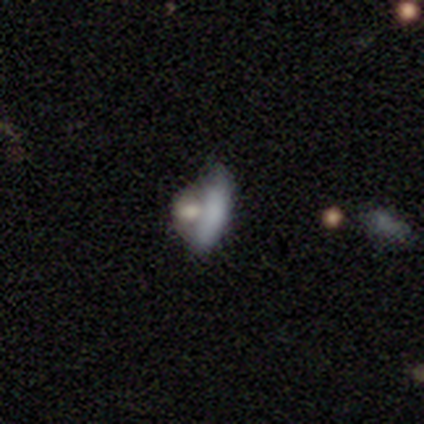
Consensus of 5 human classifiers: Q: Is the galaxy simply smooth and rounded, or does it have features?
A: smooth — 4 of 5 (80%).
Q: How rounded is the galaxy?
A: in between — 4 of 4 (100%).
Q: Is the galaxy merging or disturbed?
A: none — 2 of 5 (40%, tied with merger).